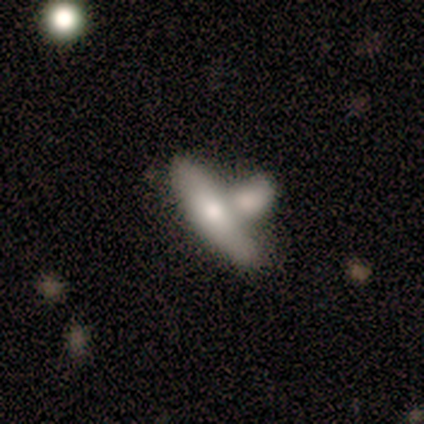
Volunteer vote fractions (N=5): Overall: smooth (80%). How rounded: cigar-shaped (75%). Merging: merger (60%; none 20%).